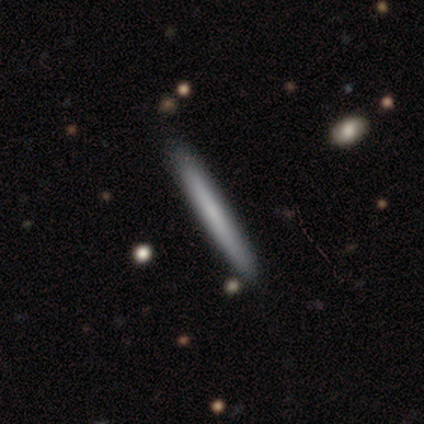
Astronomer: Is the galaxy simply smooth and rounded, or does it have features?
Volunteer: smooth — 80%.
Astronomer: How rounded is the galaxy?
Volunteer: cigar-shaped — 100%.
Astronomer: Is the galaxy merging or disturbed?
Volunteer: none — 80%.